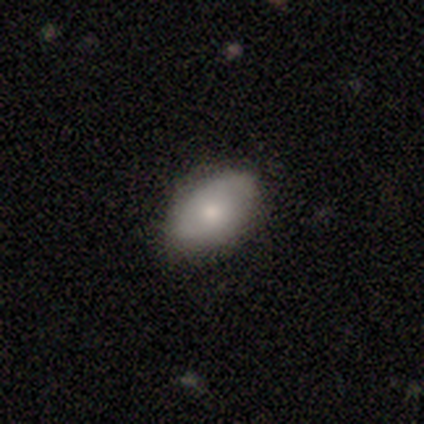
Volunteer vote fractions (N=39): smooth_or_featured: smooth (p=0.74) [alt: featured or disk p=0.18]
how_rounded: in between (p=0.86) [alt: round p=0.14]
merging: none (p=0.86) [alt: minor disturbance p=0.08]